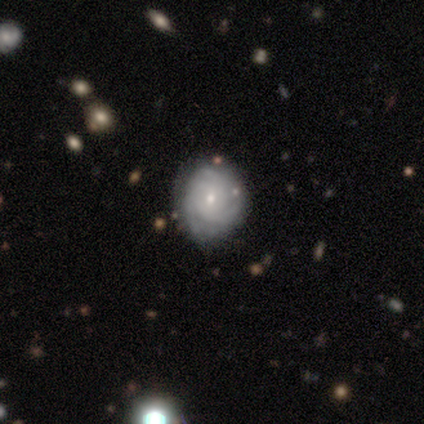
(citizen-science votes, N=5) featured or disk 60%, smooth 40%, star or artifact 0%. Down the decision tree: edge-on disk — no (100%); bar — no (100%); spiral arms — yes (67%); spiral arm count — 1 (50%, tied with can't tell); spiral winding — tight (100%); bulge size — small (100%); merging — minor disturbance (60%).